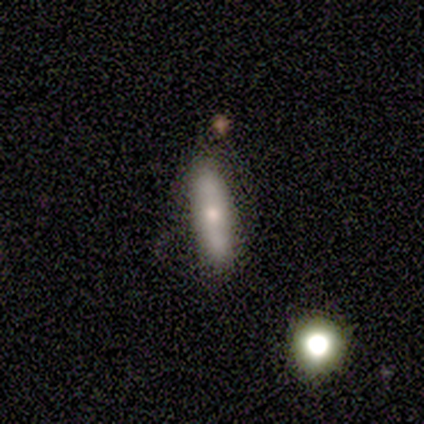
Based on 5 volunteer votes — smooth 40% (tied), featured or disk 40% (tied), star or artifact 20%. Down the decision tree: how rounded — cigar-shaped (100%); merging — none (50%, tied with merger).